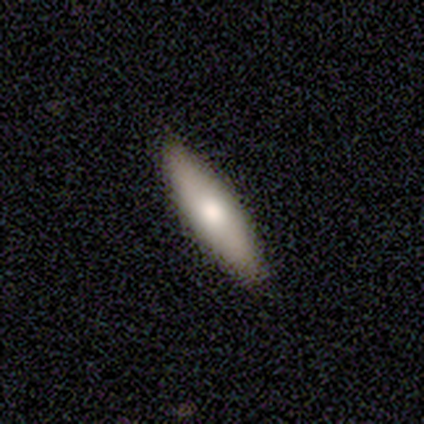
Q: Smooth or featured?
A: smooth (80%); runner-up: featured or disk (20%)
Q: How rounded?
A: cigar-shaped (100%)
Q: Merging?
A: none (100%)